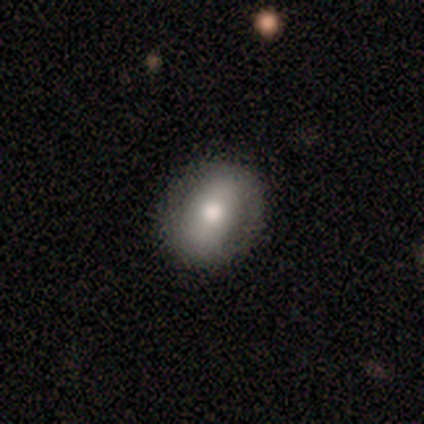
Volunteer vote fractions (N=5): smooth-or-featured: smooth: 60% | featured or disk: 20% | star or artifact: 20%
  how-rounded: in between: 67% | round: 33% | cigar-shaped: 0%
  merging: none: 100% | minor disturbance: 0% | major disturbance: 0% | merger: 0%